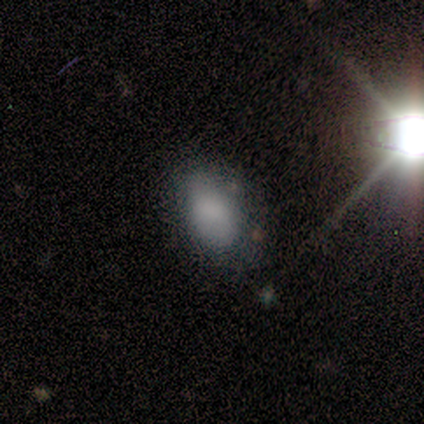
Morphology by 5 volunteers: smooth-or-featured: smooth: 60% | star or artifact: 40% | featured or disk: 0%
  how-rounded: in between: 100% | round: 0% | cigar-shaped: 0%
  merging: major disturbance: 67% | minor disturbance: 33% | none: 0% | merger: 0%